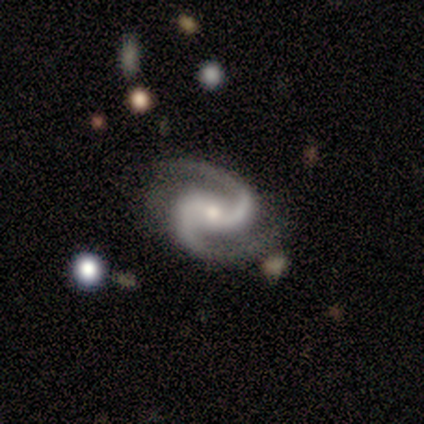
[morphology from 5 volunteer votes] This is clearly a featured or disk galaxy (100%). It is clearly not viewed edge-on (100%). Bar: marginally weak (40%, tied with no). Spiral arm pattern: clearly yes (100%). Spiral arm count: clearly 2 (100%). Spiral winding: clearly medium (80%). Central bulge: marginally small (40%, tied with none). Merging: clearly none (80%).